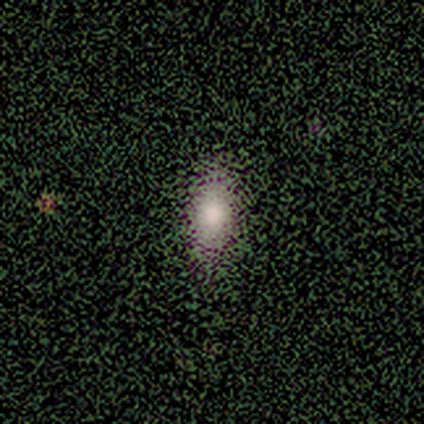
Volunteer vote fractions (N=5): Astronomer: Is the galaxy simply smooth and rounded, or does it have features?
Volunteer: smooth — 80%.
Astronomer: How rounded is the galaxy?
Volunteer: in between — 100%.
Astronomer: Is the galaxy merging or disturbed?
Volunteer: none — 100%.